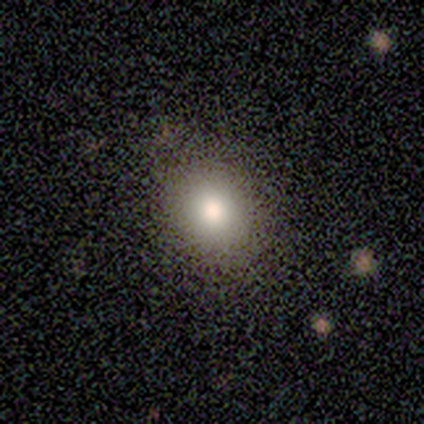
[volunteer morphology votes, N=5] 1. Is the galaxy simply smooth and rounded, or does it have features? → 100% smooth, 0% featured or disk, 0% star or artifact.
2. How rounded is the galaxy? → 80% in between, 20% round, 0% cigar-shaped.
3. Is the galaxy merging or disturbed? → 80% none, 20% merger, 0% minor disturbance, 0% major disturbance.